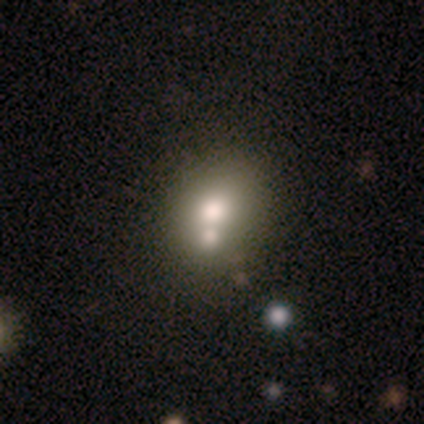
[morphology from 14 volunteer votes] This appears to be a smooth galaxy with no disk features (71%) that is round (60%). Merging: merger (45%).